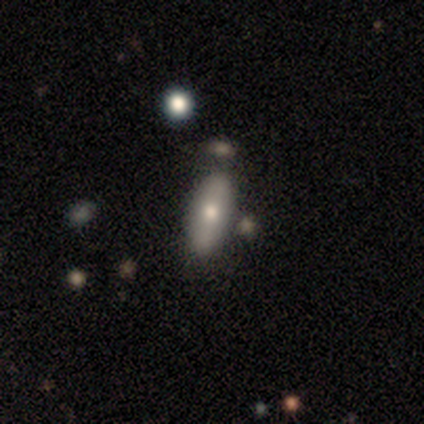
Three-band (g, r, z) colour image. It shows a smooth galaxy with no disk features (56%) that is in between round and cigar-shaped (68%). Merging: none (64%).